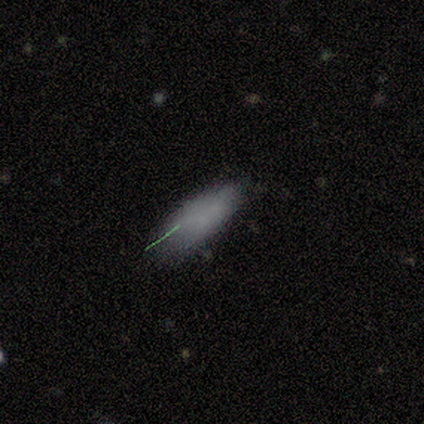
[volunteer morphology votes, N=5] This is clearly a smooth galaxy (80%). How rounded: likely in between (75%). Merging: likely minor disturbance (60%).